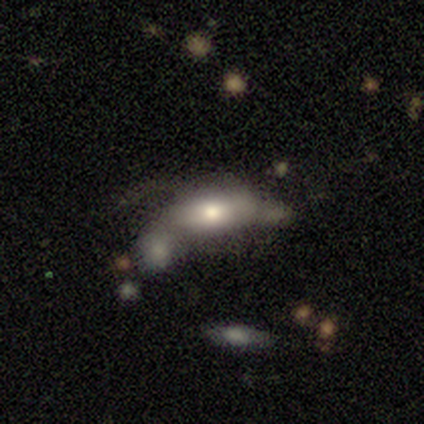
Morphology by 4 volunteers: Smooth or featured? smooth (75%)
How rounded? in between (100%)
Merging? major disturbance (50%)